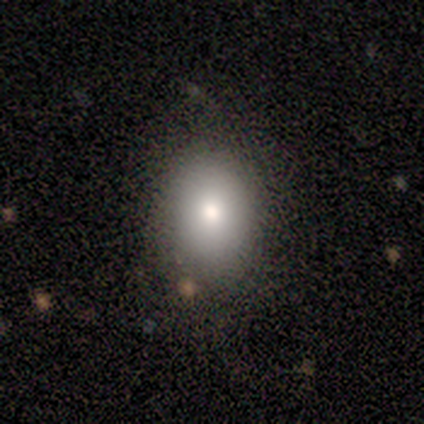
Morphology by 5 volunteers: Smooth or featured: smooth — 80% (star or artifact — 20%)
How rounded: in between — 100%
Merging: none — 100%